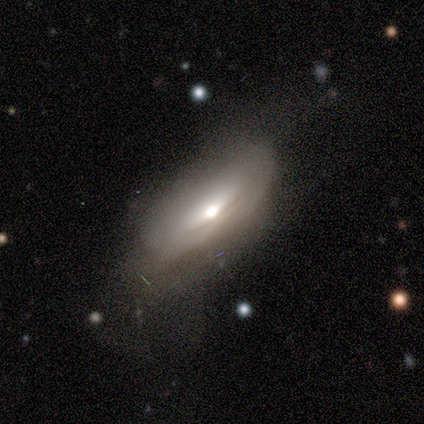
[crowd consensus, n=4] This appears to be a featured or disk galaxy (100%) viewed edge-on (75%) with a rounded central bulge (67%). Merging: none (50%).